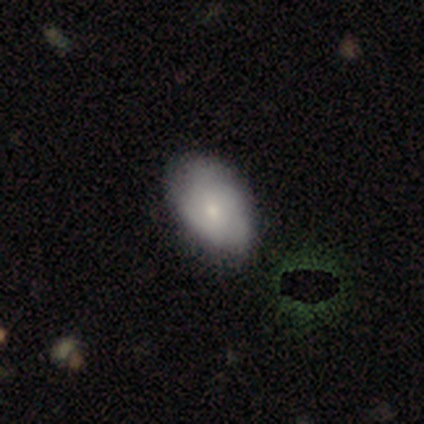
smooth_or_featured: smooth (p=0.72) [alt: featured or disk p=0.23]
how_rounded: in between (p=0.96) [alt: round p=0.04]
merging: none (p=0.57) [alt: minor disturbance p=0.11]